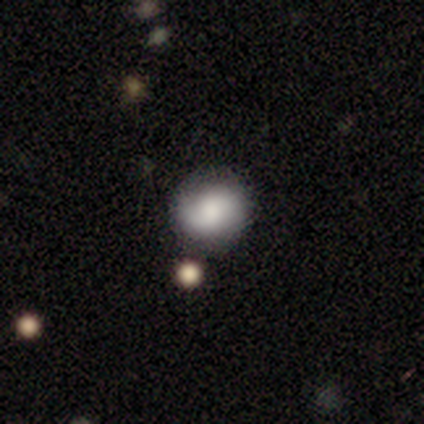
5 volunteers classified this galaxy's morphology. smooth_or_featured: featured or disk (p=0.60) [alt: smooth p=0.40]
disk_edge_on: no (p=1.00)
bar: no (p=0.67) [alt: weak p=0.33]
has_spiral_arms: yes (p=0.67) [alt: no p=0.33]
spiral_winding: tight (p=0.50) [tied with: medium p=0.50]
spiral_arm_count: 2 (p=1.00)
bulge_size: large (p=0.67) [alt: none p=0.33]
merging: none (p=1.00)